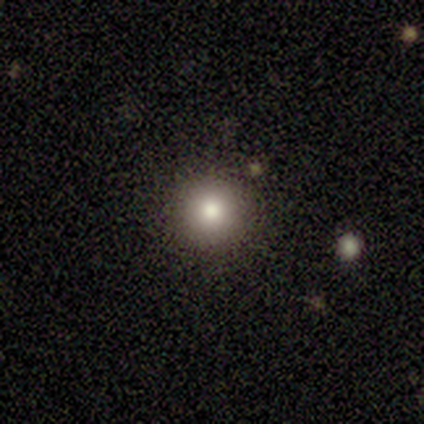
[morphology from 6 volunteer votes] A smooth galaxy with no disk features (100%) that is round (100%). Merging: none (100%).